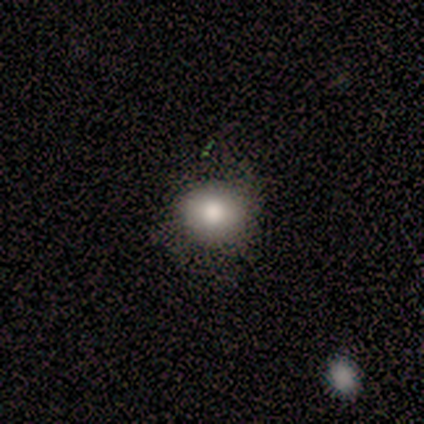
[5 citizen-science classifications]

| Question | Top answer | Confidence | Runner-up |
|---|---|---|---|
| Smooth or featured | smooth | 100% | — |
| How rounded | round | 100% | — |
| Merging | none | 80% | minor disturbance (20%) |